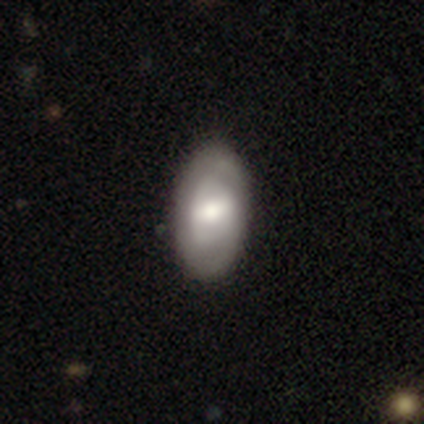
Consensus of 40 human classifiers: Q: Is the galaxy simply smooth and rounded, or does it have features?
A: featured or disk — 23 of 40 (57%).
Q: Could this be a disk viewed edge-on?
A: no — 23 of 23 (100%).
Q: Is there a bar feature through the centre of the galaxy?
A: weak — 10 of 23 (43%).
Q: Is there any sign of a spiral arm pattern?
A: no — 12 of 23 (52%).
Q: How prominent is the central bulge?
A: moderate — 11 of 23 (48%).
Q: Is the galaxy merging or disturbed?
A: none — 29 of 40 (72%).